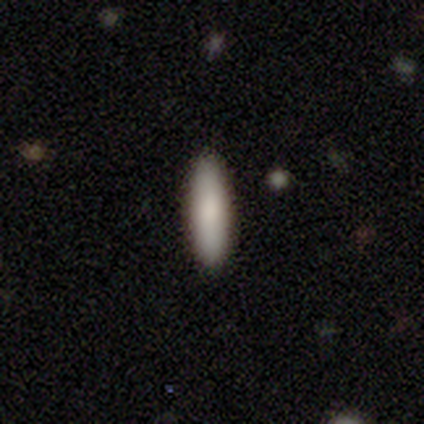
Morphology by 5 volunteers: Smooth or featured: smooth — 80% (featured or disk — 20%)
How rounded: in between — 50% (tied with cigar-shaped — 50%)
Merging: none — 100%